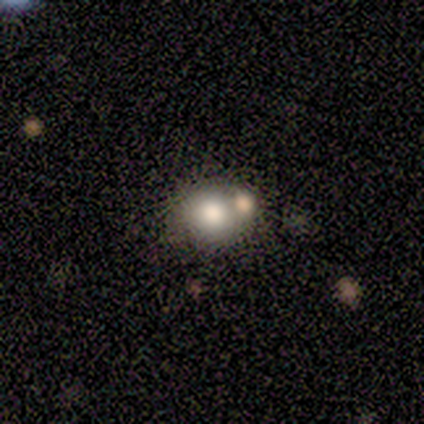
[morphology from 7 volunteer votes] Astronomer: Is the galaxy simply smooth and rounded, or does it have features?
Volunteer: smooth — 100%.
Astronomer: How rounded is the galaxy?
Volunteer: round — 86%.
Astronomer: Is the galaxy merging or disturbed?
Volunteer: none — 57%.